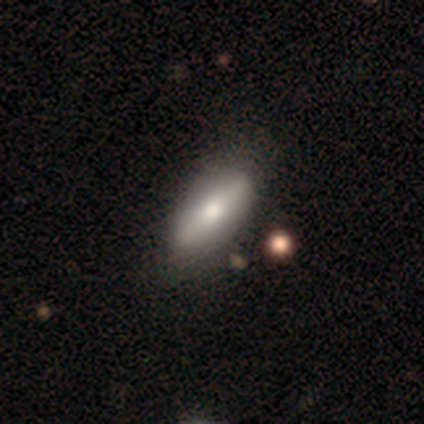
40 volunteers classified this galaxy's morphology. Volunteers were most divided on "smooth or featured": smooth: 70%, featured or disk: 28%, star or artifact: 2%. More confident: how rounded — in between (71%); merging — none (64%).